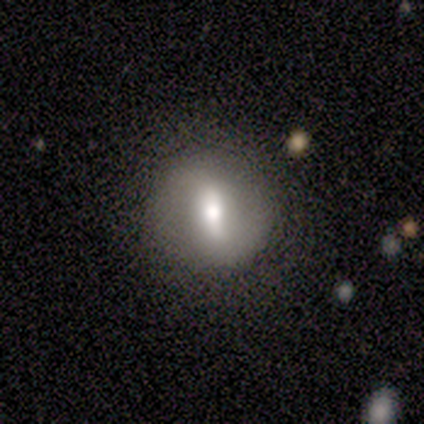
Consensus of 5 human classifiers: A featured or disk galaxy (60%) with a strong bar (100%), 2 (100%) medium (100%) spiral arms (50%, tied with no) and a large central bulge (50%, tied with moderate).

Vote fractions:
- Smooth or featured? featured or disk: 60% / smooth: 40% / star or artifact: 0%
- Edge-on disk? no: 67% / yes: 33%
- Bar? strong: 100% / weak: 0% / no: 0%
- Spiral arms? yes: 50% (tied) / no: 50% (tied)
- Spiral winding? medium: 100% / tight: 0% / loose: 0%
- Spiral arm count? 2: 100% / 1: 0% / 3: 0% / 4: 0% / more than 4: 0% / can't tell: 0%
- Bulge size? large: 50% (tied) / moderate: 50% (tied) / dominant: 0% / small: 0% / none: 0%
- Merging? none: 100% / minor disturbance: 0% / major disturbance: 0% / merger: 0%